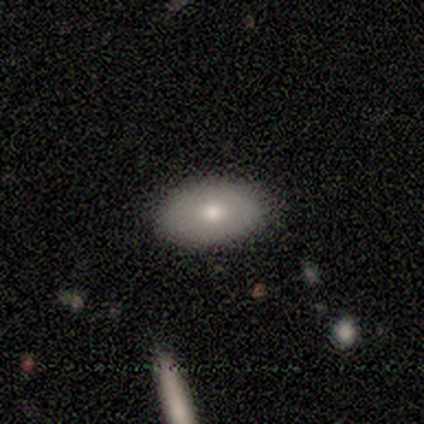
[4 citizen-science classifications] Volunteers were most divided on "smooth or featured": smooth: 75%, featured or disk: 25%, star or artifact: 0%. More confident: how rounded — in between (100%); merging — none (75%).